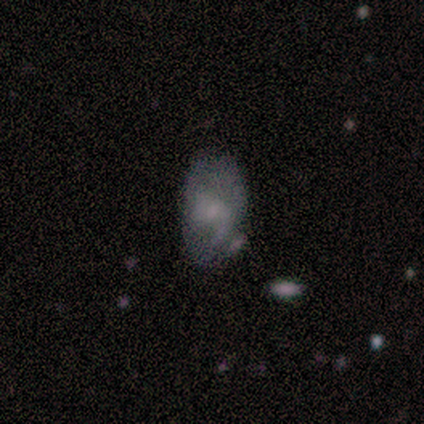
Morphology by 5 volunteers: Smooth or featured?
  - smooth: 60% *
  - featured or disk: 20%
  - star or artifact: 20%
How rounded?
  - in between: 67% *
  - round: 33%
  - cigar-shaped: 0%
Merging?
  - none: 50% *
  - minor disturbance: 25%
  - major disturbance: 25%
  - merger: 0%